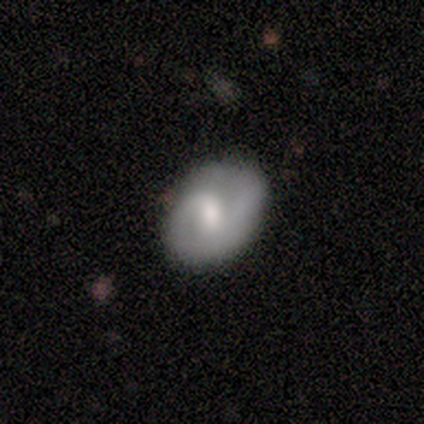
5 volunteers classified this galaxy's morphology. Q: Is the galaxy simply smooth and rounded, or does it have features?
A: featured or disk — 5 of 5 (100%).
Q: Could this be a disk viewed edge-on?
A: no — 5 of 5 (100%).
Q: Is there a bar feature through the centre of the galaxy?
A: strong — 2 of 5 (40%, tied with no).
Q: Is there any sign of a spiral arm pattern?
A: yes — 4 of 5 (80%).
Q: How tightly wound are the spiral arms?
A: medium — 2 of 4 (50%, tied with loose).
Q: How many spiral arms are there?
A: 2 — 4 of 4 (100%).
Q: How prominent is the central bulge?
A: moderate — 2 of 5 (40%, tied with small).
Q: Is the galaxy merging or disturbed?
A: none — 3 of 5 (60%).